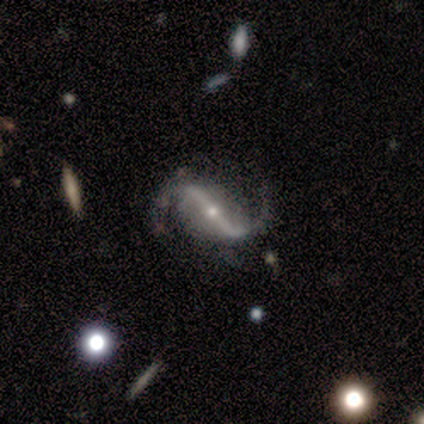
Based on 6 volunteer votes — Q: Smooth or featured?
A: featured or disk (83%); runner-up: smooth (17%)
Q: Edge-on disk?
A: no (100%)
Q: Bar?
A: strong (100%)
Q: Spiral arms?
A: yes (100%)
Q: Spiral winding?
A: loose (60%); runner-up: tight (20%)
Q: Spiral arm count?
A: 2 (100%)
Q: Bulge size?
A: small (100%)
Q: Merging?
A: none (67%); runner-up: major disturbance (33%)